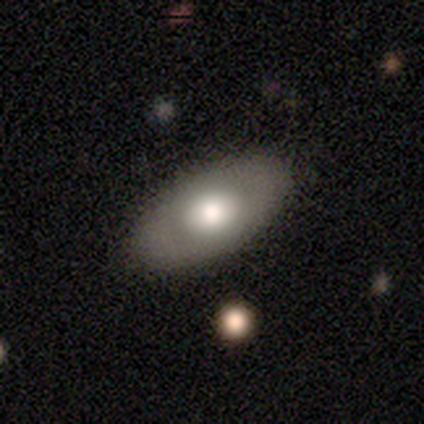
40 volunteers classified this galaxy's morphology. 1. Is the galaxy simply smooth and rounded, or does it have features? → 60% smooth, 40% featured or disk, 0% star or artifact.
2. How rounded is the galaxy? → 88% in between, 8% round, 4% cigar-shaped.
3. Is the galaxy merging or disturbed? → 90% none, 10% minor disturbance, 0% major disturbance, 0% merger.